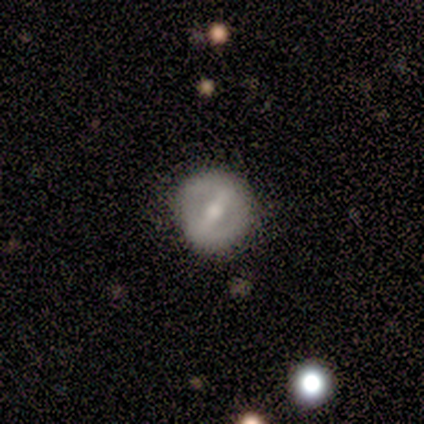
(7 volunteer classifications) Smooth or featured? smooth (57%)
How rounded? round (100%)
Merging? none (86%)